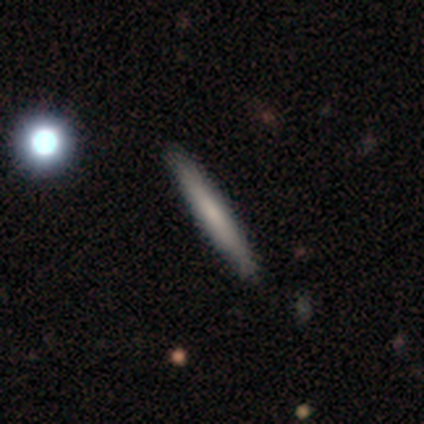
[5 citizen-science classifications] Smooth or featured? 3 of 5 (60%) said smooth. How rounded? 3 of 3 (100%) said cigar-shaped. Merging? 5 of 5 (100%) said none.